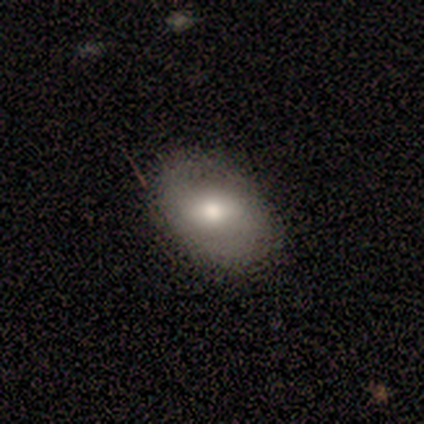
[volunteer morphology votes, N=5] Overall: smooth (80%). How rounded: in between (75%). Merging: none (80%).